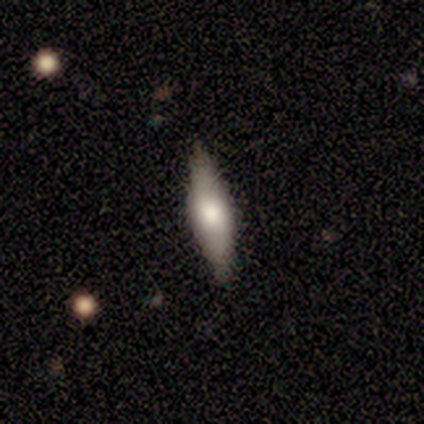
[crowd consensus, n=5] This appears to be a featured or disk galaxy (60%) viewed edge-on (67%) with a rounded central bulge (100%). Merging: none (60%).